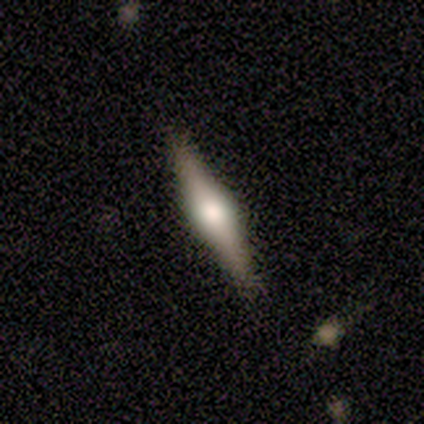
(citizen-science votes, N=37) featured or disk 62%, smooth 35%, star or artifact 3%. Down the decision tree: edge-on disk — yes (100%); edge-on bulge — rounded (91%); merging — none (64%).